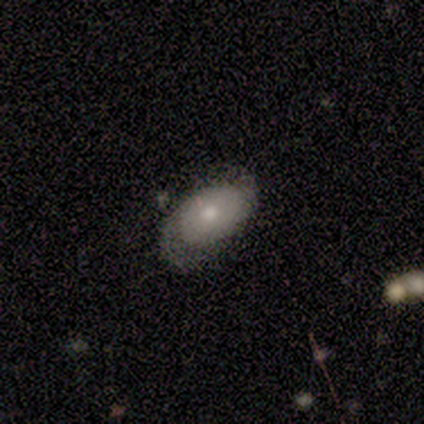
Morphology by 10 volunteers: This appears to be a featured or disk galaxy (60%) with no bar (100%), 2 (75%) tight (50%) spiral arms (80%) and a large central bulge (40%, tied with moderate). Merging: none (40%).